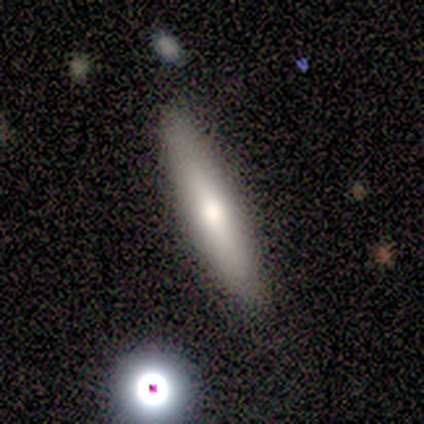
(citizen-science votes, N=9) Overall: smooth (67%; featured or disk 33%). How rounded: cigar-shaped (100%). Merging: none (89%).